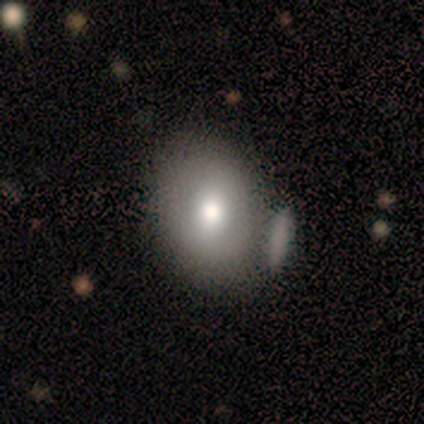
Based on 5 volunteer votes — smooth-or-featured: featured or disk: 80% | star or artifact: 20% | smooth: 0%
  disk-edge-on: no: 100% | yes: 0%
    bar: no: 75% | strong: 25% | weak: 0%
    has-spiral-arms: no: 75% | yes: 25%
    bulge-size: moderate: 50% | large: 25% | small: 25% | dominant: 0% | none: 0%
  merging: merger: 50% | none: 25% | minor disturbance: 25% | major disturbance: 0%